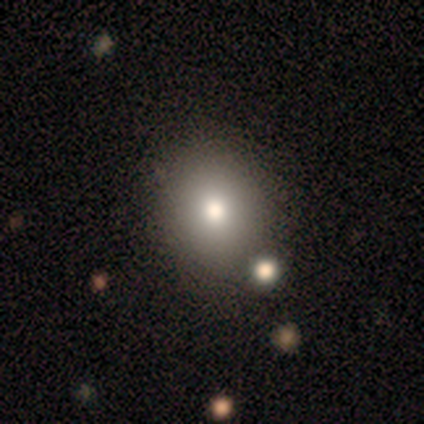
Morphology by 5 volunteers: Smooth or featured? 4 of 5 (80%) said smooth. How rounded? 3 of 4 (75%) said in between. Merging? 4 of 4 (100%) said none.